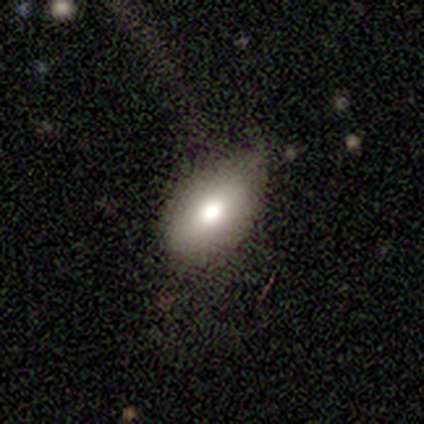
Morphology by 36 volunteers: A smooth galaxy with no disk features (86%) that is in between round and cigar-shaped (97%). Merging: none (62%).